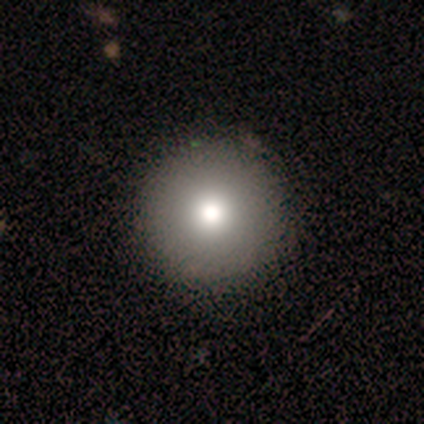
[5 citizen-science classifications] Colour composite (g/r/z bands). It shows a smooth galaxy with no disk features (100%) that is round (80%). Merging: none (100%).